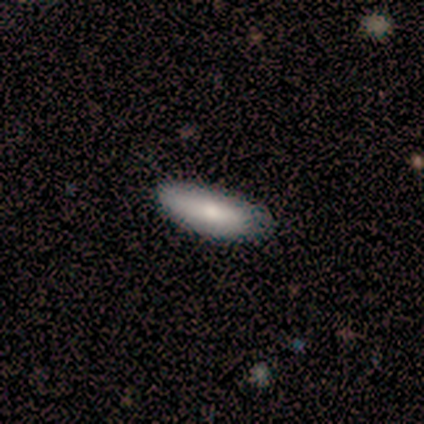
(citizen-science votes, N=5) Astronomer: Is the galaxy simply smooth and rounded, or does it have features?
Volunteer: smooth — 60% (runner-up: featured or disk, 40%).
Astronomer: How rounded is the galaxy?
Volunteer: cigar-shaped — 67%.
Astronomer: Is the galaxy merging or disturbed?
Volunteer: none — 100%.